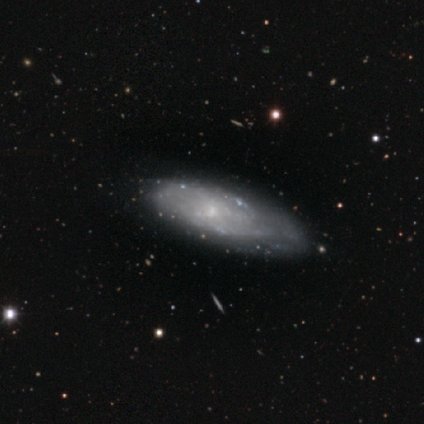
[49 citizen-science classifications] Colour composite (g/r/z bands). It shows a featured or disk galaxy (82%) with no bar (74%), medium (37%) spiral arms (71%) and a small central bulge (79%). Merging: none (63%).